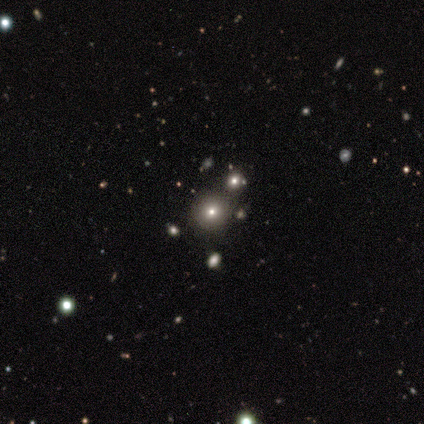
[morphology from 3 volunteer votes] A smooth galaxy with no disk features (33%, tied with featured or disk and star or artifact) that is round (100%). Merging: none (50%, tied with minor disturbance).